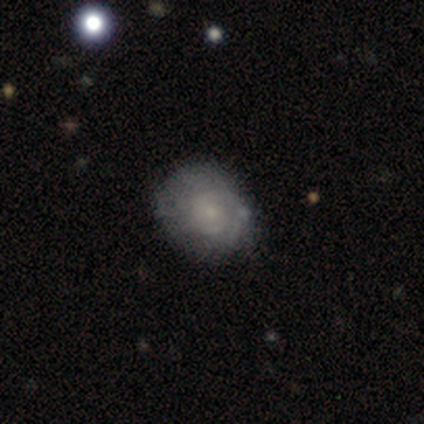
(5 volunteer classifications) Q: Smooth or featured?
A: featured or disk (60%); runner-up: smooth (40%)
Q: Edge-on disk?
A: no (100%)
Q: Bar?
A: no (100%)
Q: Spiral arms?
A: no (67%); runner-up: yes (33%)
Q: Bulge size?
A: moderate (33%); tied with: small (33%); none (33%)
Q: Merging?
A: minor disturbance (60%); runner-up: none (40%)